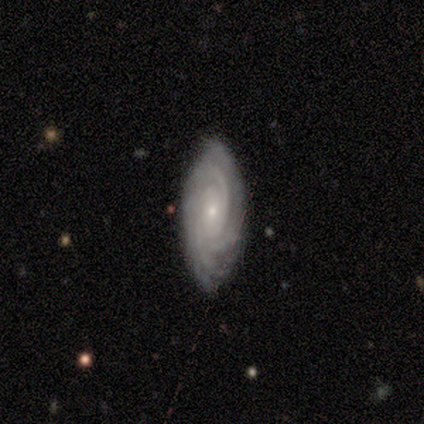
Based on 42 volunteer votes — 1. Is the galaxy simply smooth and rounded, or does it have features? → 90% featured or disk, 5% smooth, 5% star or artifact.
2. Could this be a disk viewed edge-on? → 95% no, 5% yes.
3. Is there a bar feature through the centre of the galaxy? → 86% no, 8% weak, 6% strong.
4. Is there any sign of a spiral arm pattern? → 94% yes, 6% no.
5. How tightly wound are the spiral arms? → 82% tight, 12% medium, 6% loose.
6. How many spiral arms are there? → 35% 4, 29% 3, 21% can't tell, 9% more than 4, 6% 2, 0% 1.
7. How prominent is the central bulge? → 67% small, 28% moderate, 3% large, 3% none, 0% dominant.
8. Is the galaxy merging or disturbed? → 75% none, 25% minor disturbance, 0% major disturbance, 0% merger.